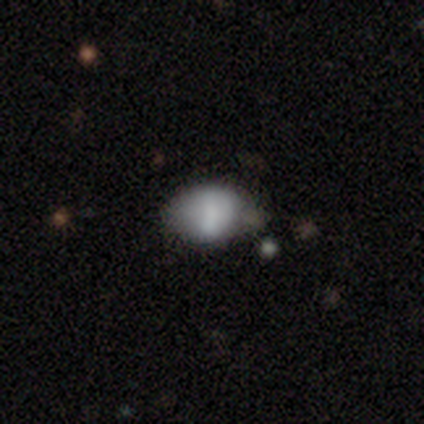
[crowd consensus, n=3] A featured or disk galaxy (67%) viewed edge-on (50%, tied with no) with no central bulge (100%). Merging: none (67%).